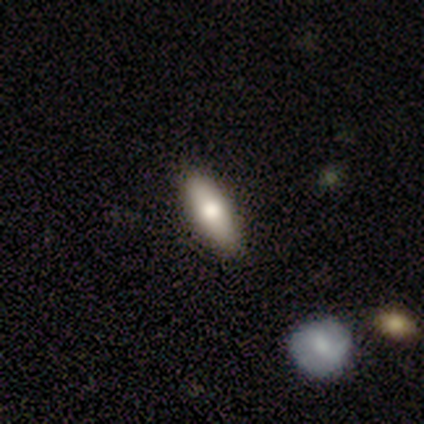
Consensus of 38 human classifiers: smooth 84%, featured or disk 13%, star or artifact 3%. Down the decision tree: how rounded — in between (62%); merging — none (68%).